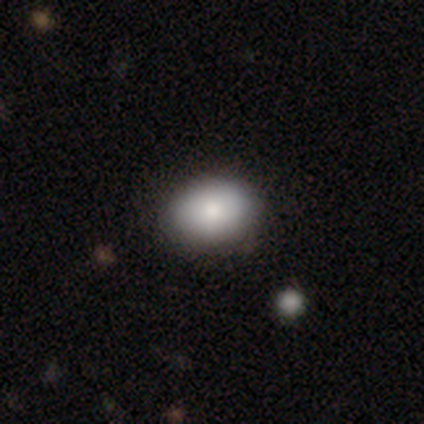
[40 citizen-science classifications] Overall: smooth (90%). How rounded: in between (78%). Merging: none (58%).